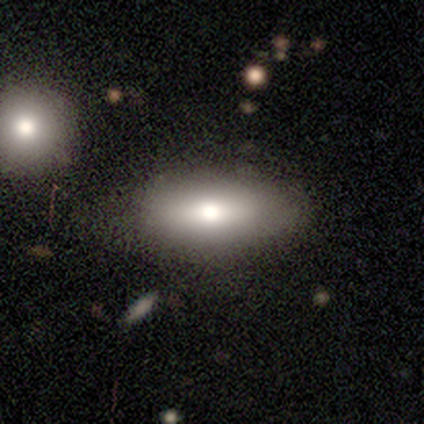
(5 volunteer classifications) Q: Smooth or featured?
A: smooth (80%); runner-up: featured or disk (20%)
Q: How rounded?
A: in between (100%)
Q: Merging?
A: none (40%); runner-up: minor disturbance (20%)